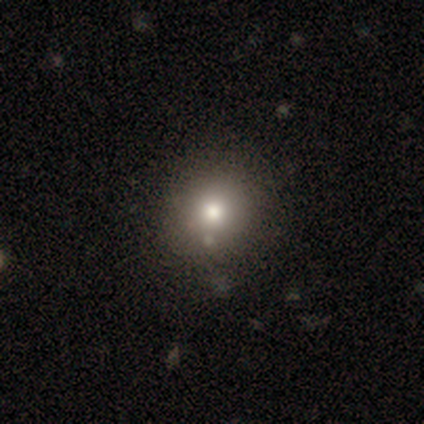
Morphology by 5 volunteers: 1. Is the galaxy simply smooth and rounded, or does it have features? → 40% smooth (tied), 40% featured or disk (tied), 20% star or artifact.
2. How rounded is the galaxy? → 50% round (tied), 50% in between (tied), 0% cigar-shaped.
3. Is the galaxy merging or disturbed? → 75% none, 25% minor disturbance, 0% major disturbance, 0% merger.